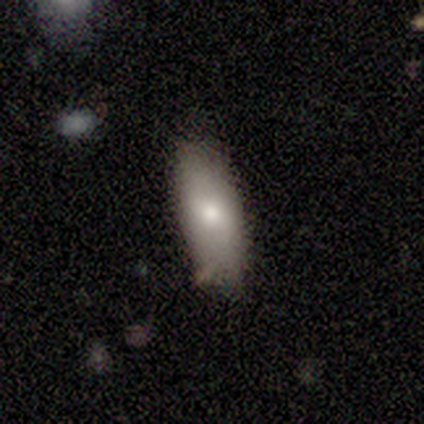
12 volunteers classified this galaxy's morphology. Overall: smooth (83%). How rounded: in between (100%). Merging: none (50%; minor disturbance 42%).